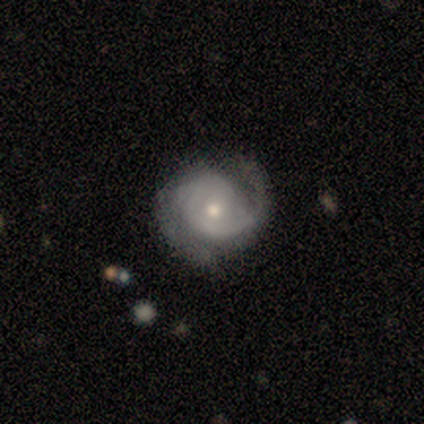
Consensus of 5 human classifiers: This appears to be a featured or disk galaxy (100%) with no bar (60%), 2 (80%) tight (60%) spiral arms (100%) and a moderate central bulge (60%). Merging: none (100%).